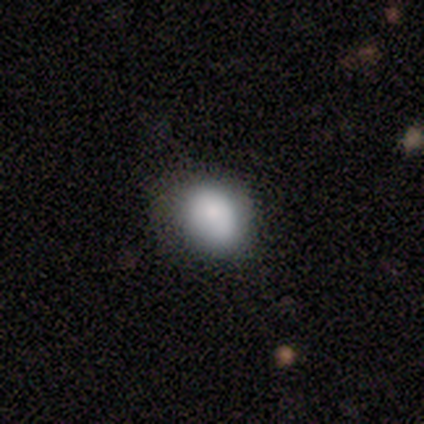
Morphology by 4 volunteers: smooth-or-featured: smooth: 75% | star or artifact: 25% | featured or disk: 0%
  how-rounded: round: 67% | in between: 33% | cigar-shaped: 0%
  merging: none: 100% | minor disturbance: 0% | major disturbance: 0% | merger: 0%